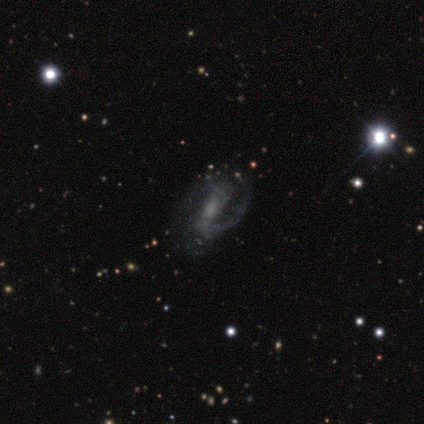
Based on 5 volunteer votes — Smooth or featured?
  - featured or disk: 80% *
  - smooth: 20%
  - star or artifact: 0%
Edge-on disk?
  - no: 100% *
  - yes: 0%
Bar?
  - strong: 50% * (tied)
  - no: 50% * (tied)
  - weak: 0%
Spiral arms?
  - yes: 75% *
  - no: 25%
Spiral winding?
  - medium: 67% *
  - loose: 33%
  - tight: 0%
Spiral arm count?
  - 2: 67% *
  - 1: 33%
  - 3: 0%
  - 4: 0%
  - more than 4: 0%
  - can't tell: 0%
Bulge size?
  - large: 25% * (tied)
  - moderate: 25% * (tied)
  - small: 25% * (tied)
  - none: 25% * (tied)
  - dominant: 0%
Merging?
  - none: 40% * (tied)
  - major disturbance: 40% * (tied)
  - minor disturbance: 20%
  - merger: 0%